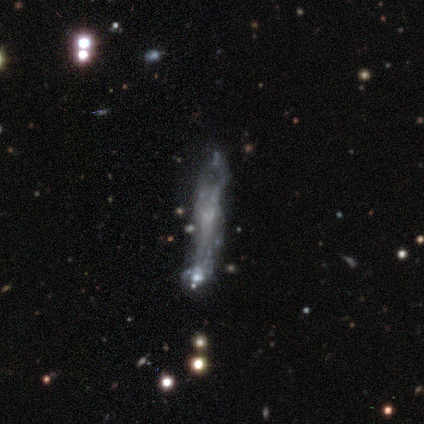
Morphology: type=featured or disk (67%); edge-on=no (62%); bar=no (100%); spiral arms=no (100%); bulge=none (100%); merging=none (36%).